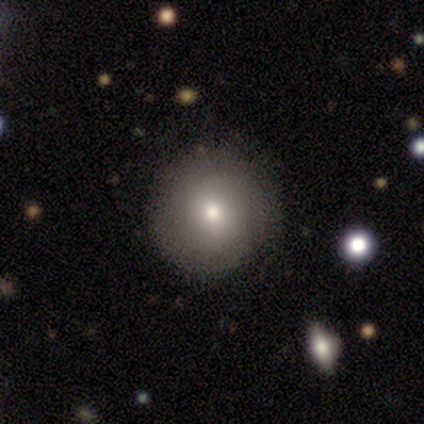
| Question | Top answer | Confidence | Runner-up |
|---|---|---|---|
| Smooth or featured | smooth | 50% | featured or disk (33%) |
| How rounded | round | 100% | — |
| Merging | none | 80% | minor disturbance (20%) |